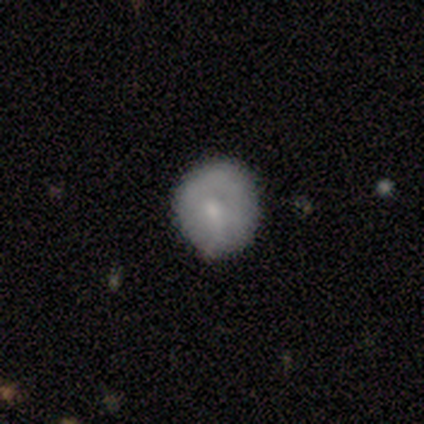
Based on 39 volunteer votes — A smooth galaxy with no disk features (69%) that is round (89%).

Vote fractions:
- Smooth or featured? smooth: 69% / featured or disk: 23% / star or artifact: 8%
- How rounded? round: 89% / in between: 11% / cigar-shaped: 0%
- Merging? none: 81% / minor disturbance: 17% / major disturbance: 3% / merger: 0%